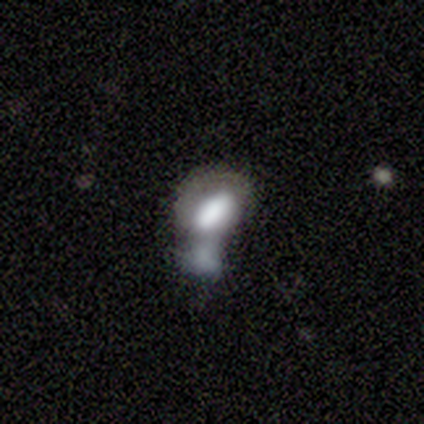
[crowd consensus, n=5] Volunteers were most divided on "smooth or featured": smooth: 60%, featured or disk: 20%, star or artifact: 20%. More confident: how rounded — in between (100%); merging — merger (75%).